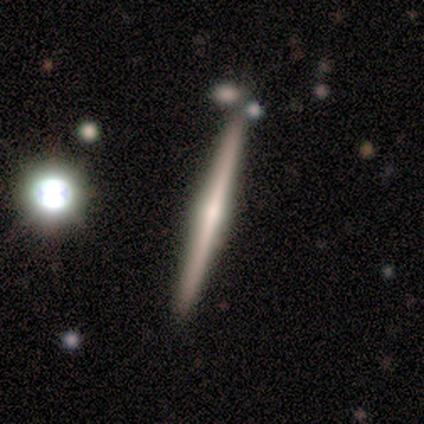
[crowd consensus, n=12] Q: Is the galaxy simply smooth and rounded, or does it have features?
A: featured or disk — 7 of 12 (58%).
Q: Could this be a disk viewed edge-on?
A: yes — 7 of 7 (100%).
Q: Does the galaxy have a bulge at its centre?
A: rounded — 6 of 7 (86%).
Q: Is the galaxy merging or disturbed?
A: none — 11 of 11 (100%).